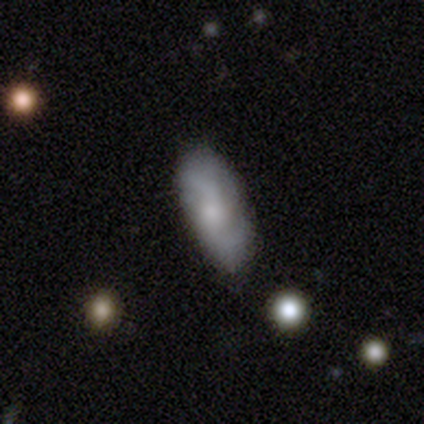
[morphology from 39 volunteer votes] Q: Smooth or featured?
A: featured or disk (51%); runner-up: smooth (38%)
Q: Edge-on disk?
A: no (95%); runner-up: yes (5%)
Q: Bar?
A: no (63%); runner-up: weak (32%)
Q: Spiral arms?
A: yes (84%); runner-up: no (16%)
Q: Spiral winding?
A: medium (44%); runner-up: loose (38%)
Q: Spiral arm count?
A: 2 (62%); runner-up: can't tell (25%)
Q: Bulge size?
A: small (53%); runner-up: moderate (32%)
Q: Merging?
A: none (80%); runner-up: minor disturbance (17%)